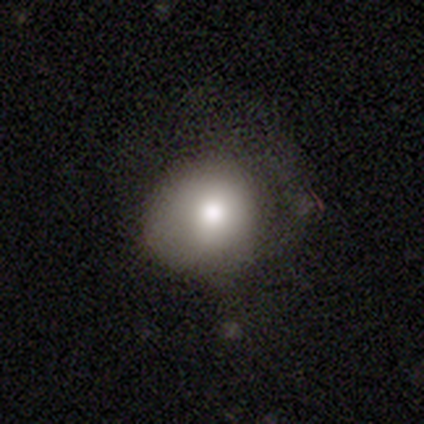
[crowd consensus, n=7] smooth_or_featured: smooth (p=0.71) [alt: featured or disk p=0.14]
how_rounded: round (p=0.60) [alt: in between p=0.40]
merging: none (p=0.50) [alt: minor disturbance p=0.33]